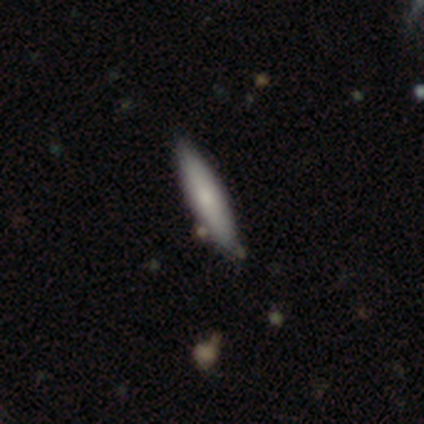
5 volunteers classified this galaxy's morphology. A smooth galaxy with no disk features (80%) that is cigar-shaped (75%).

Vote fractions:
- Smooth or featured? smooth: 80% / featured or disk: 20% / star or artifact: 0%
- How rounded? cigar-shaped: 75% / in between: 25% / round: 0%
- Merging? none: 100% / minor disturbance: 0% / major disturbance: 0% / merger: 0%